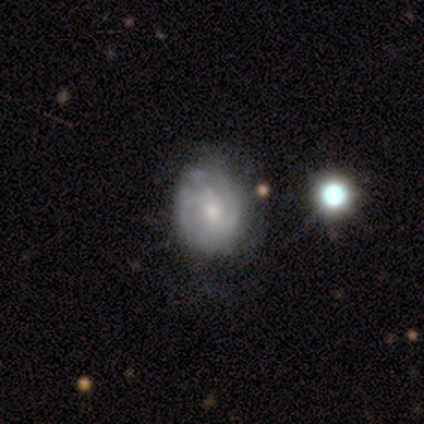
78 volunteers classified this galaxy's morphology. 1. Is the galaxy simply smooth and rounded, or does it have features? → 79% featured or disk, 21% smooth, 0% star or artifact.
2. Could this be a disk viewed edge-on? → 98% no, 2% yes.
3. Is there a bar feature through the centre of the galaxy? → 56% no, 38% weak, 7% strong.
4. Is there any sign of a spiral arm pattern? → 92% yes, 8% no.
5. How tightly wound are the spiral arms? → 52% tight, 39% medium, 9% loose.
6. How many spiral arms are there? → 45% can't tell, 36% 2, 11% 3, 5% 4, 4% 1, 0% more than 4.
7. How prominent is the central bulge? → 64% small, 31% moderate, 5% large, 0% dominant, 0% none.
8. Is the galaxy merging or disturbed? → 31% none, 14% minor disturbance, 9% merger, 5% major disturbance.